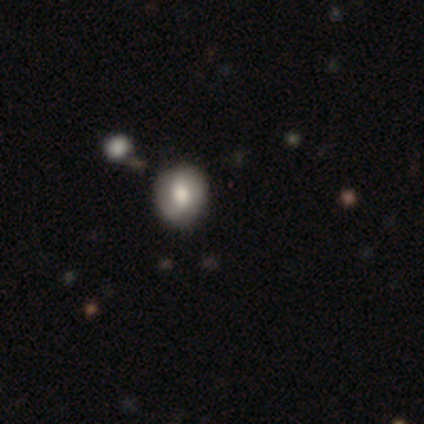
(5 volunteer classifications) A featured or disk galaxy (80%) with a weak bar (75%), 2 (100%) medium (50%, tied with loose) spiral arms (50%, tied with no) and a large central bulge (75%).

Vote fractions:
- Smooth or featured? featured or disk: 80% / smooth: 20% / star or artifact: 0%
- Edge-on disk? no: 100% / yes: 0%
- Bar? weak: 75% / no: 25% / strong: 0%
- Spiral arms? yes: 50% (tied) / no: 50% (tied)
- Spiral winding? medium: 50% (tied) / loose: 50% (tied) / tight: 0%
- Spiral arm count? 2: 100% / 1: 0% / 3: 0% / 4: 0% / more than 4: 0% / can't tell: 0%
- Bulge size? large: 75% / moderate: 25% / dominant: 0% / small: 0% / none: 0%
- Merging? none: 100% / minor disturbance: 0% / major disturbance: 0% / merger: 0%